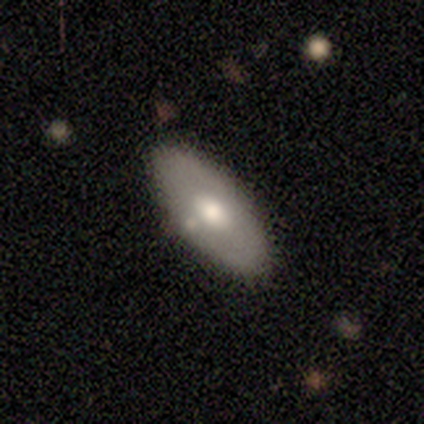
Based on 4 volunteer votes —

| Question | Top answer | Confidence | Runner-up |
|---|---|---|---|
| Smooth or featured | smooth | 50% | tied: featured or disk (50%) |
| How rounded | in between | 100% | — |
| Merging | none | 100% | — |